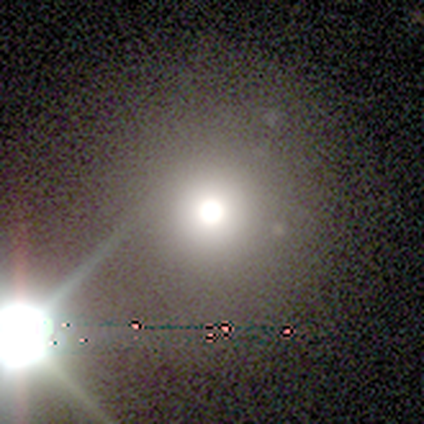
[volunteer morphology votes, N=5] smooth_or_featured: star or artifact (p=0.60) [alt: smooth p=0.40]